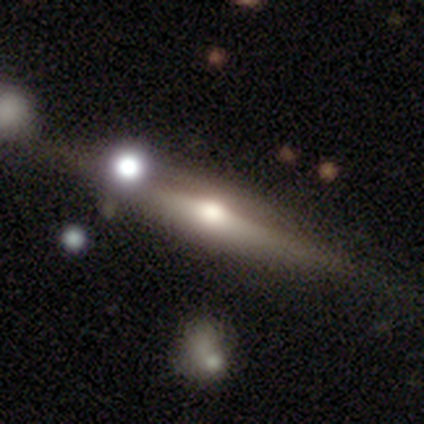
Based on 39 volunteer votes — A featured or disk galaxy (79%) viewed edge-on (94%) with a rounded central bulge (97%). Merging: none (78%).